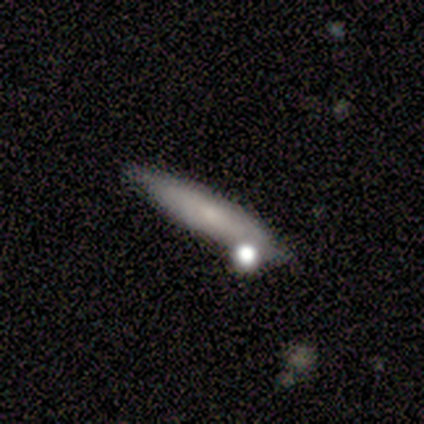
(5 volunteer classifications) Smooth or featured?
  - smooth: 80% *
  - star or artifact: 20%
  - featured or disk: 0%
How rounded?
  - cigar-shaped: 75% *
  - in between: 25%
  - round: 0%
Merging?
  - none: 100% *
  - minor disturbance: 0%
  - major disturbance: 0%
  - merger: 0%